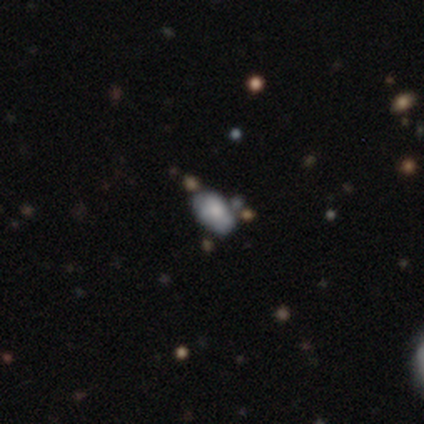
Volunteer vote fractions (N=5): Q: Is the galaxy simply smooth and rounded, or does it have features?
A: smooth — 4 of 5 (80%).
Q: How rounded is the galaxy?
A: in between — 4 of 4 (100%).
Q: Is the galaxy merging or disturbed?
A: none — 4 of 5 (80%).